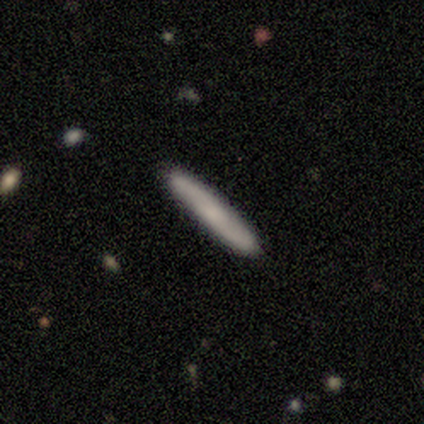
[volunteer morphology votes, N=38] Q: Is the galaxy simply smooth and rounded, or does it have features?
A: smooth — 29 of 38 (76%).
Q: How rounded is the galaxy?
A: cigar-shaped — 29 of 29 (100%).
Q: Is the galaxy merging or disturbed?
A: none — 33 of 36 (92%).